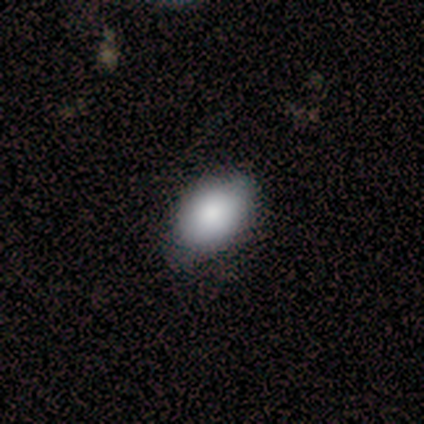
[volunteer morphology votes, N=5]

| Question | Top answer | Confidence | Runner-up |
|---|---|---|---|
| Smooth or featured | smooth | 100% | — |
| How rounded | in between | 100% | — |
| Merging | none | 60% | minor disturbance (40%) |